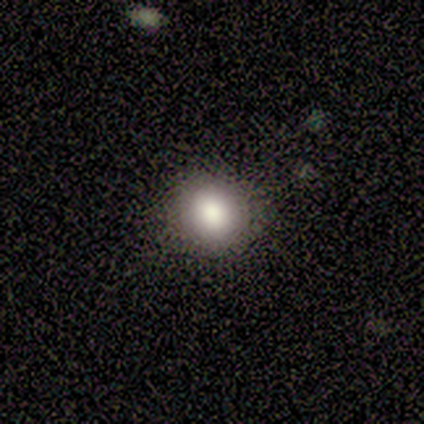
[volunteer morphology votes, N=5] Overall: smooth (100%). How rounded: in between (60%; round 40%). Merging: none (80%).